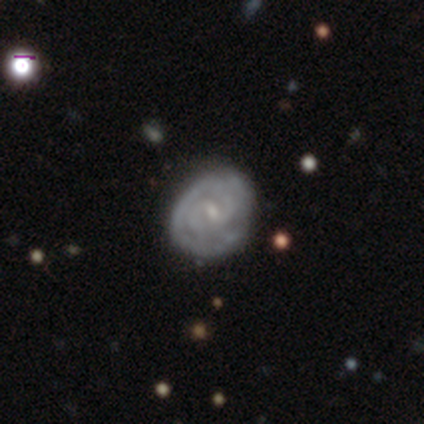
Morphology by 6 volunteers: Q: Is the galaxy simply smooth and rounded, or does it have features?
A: featured or disk — 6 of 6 (100%).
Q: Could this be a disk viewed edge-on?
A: no — 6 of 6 (100%).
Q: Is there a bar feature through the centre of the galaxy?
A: weak — 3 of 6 (50%, tied with no).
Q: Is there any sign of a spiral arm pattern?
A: yes — 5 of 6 (83%).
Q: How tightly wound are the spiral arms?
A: tight — 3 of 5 (60%).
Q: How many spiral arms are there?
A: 2 — 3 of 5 (60%).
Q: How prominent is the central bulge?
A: small — 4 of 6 (67%).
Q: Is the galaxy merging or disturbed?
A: none — 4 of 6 (67%).